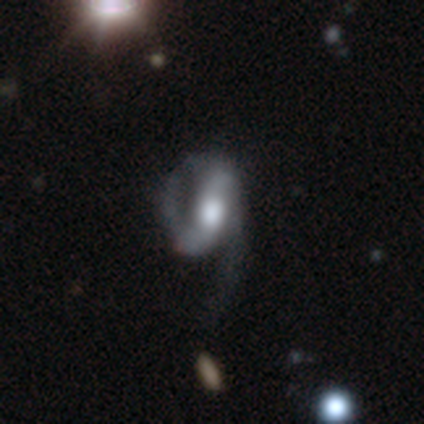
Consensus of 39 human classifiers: smooth-or-featured: featured or disk: 85% | smooth: 13% | star or artifact: 3%
  disk-edge-on: no: 94% | yes: 6%
    bar: weak: 42% | strong: 32% | no: 26%
    has-spiral-arms: yes: 87% | no: 13%
      spiral-winding: medium: 56% | loose: 30% | tight: 15%
      spiral-arm-count: 2: 89% | 1: 4% | 3: 4% | can't tell: 4% | 4: 0% | more than 4: 0%
    bulge-size: moderate: 58% | large: 35% | dominant: 3% | small: 3% | none: 0%
  merging: major disturbance: 53% | none: 32% | minor disturbance: 16% | merger: 0%